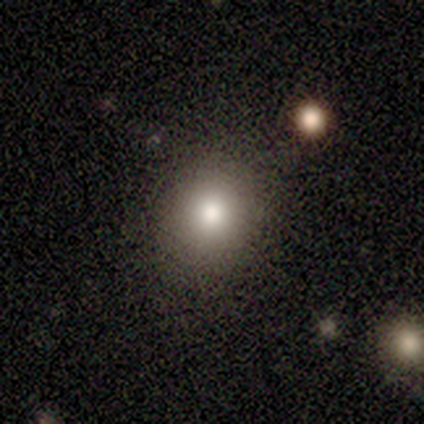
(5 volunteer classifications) Smooth or featured? smooth (80%)
How rounded? round (100%)
Merging? none (100%)